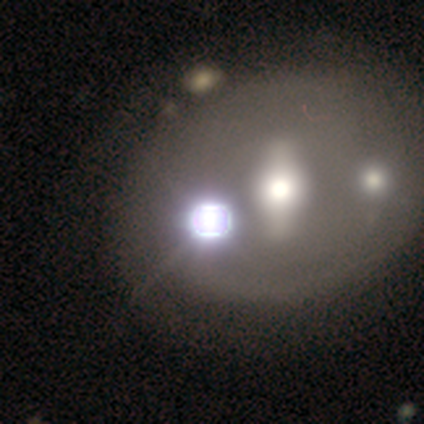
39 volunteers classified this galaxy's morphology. This appears to be a star or artifact, not a galaxy (56%).